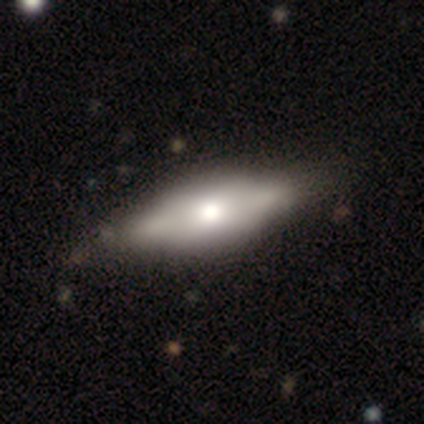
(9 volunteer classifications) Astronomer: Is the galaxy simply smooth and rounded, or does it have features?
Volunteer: featured or disk — 56% (runner-up: smooth, 33%).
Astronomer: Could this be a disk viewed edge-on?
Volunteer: yes — 80%.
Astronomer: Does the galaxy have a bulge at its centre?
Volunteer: rounded — 75%.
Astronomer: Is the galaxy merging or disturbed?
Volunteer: none — 75%.